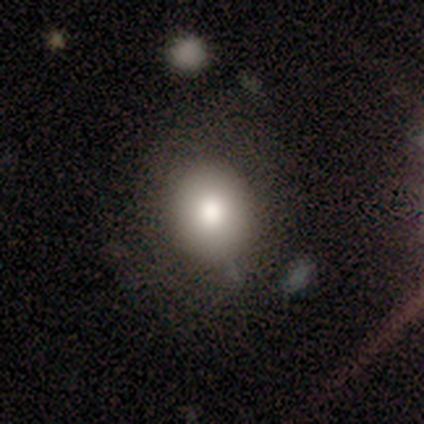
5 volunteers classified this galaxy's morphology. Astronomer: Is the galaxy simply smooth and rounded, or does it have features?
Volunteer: smooth — 80%.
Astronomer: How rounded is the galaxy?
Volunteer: round — 75%.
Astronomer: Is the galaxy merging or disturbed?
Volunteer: none — 75%.